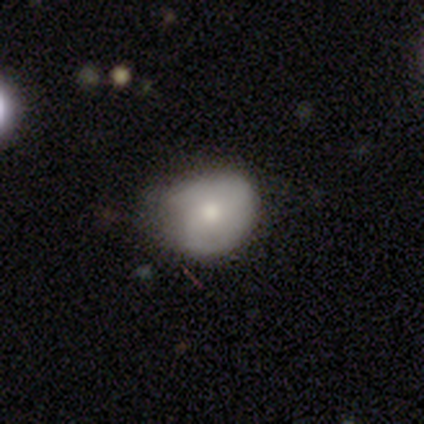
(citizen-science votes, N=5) Smooth or featured?
  - featured or disk: 60% *
  - smooth: 40%
  - star or artifact: 0%
Edge-on disk?
  - no: 100% *
  - yes: 0%
Bar?
  - no: 100% *
  - strong: 0%
  - weak: 0%
Spiral arms?
  - yes: 67% *
  - no: 33%
Spiral winding?
  - tight: 50% * (tied)
  - medium: 50% * (tied)
  - loose: 0%
Spiral arm count?
  - 2: 50% * (tied)
  - can't tell: 50% * (tied)
  - 1: 0%
  - 3: 0%
  - 4: 0%
  - more than 4: 0%
Bulge size?
  - moderate: 67% *
  - large: 33%
  - dominant: 0%
  - small: 0%
  - none: 0%
Merging?
  - minor disturbance: 80% *
  - none: 20%
  - major disturbance: 0%
  - merger: 0%